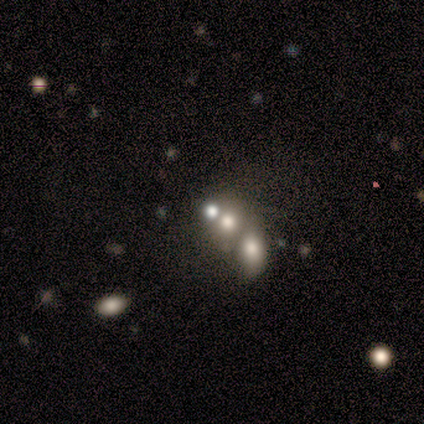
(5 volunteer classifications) Overall: smooth (80%). How rounded: round (100%). Merging: minor disturbance (60%; none 20%).